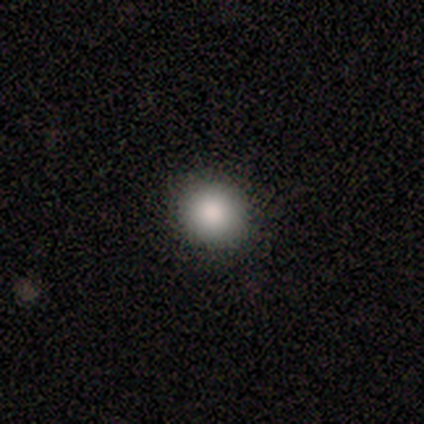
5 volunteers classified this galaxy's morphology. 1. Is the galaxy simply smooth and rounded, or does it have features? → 80% smooth, 20% star or artifact, 0% featured or disk.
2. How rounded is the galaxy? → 100% round, 0% in between, 0% cigar-shaped.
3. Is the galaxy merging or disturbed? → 75% none, 25% minor disturbance, 0% major disturbance, 0% merger.